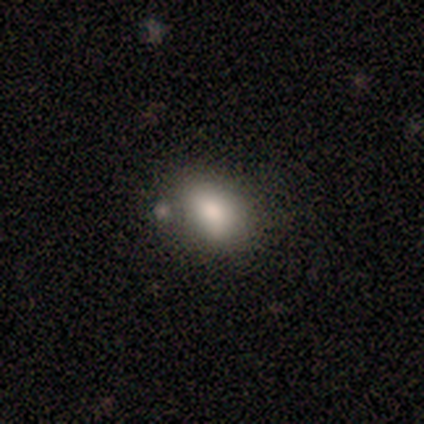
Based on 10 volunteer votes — Smooth or featured? smooth (100%)
How rounded? in between (60%)
Merging? none (60%)